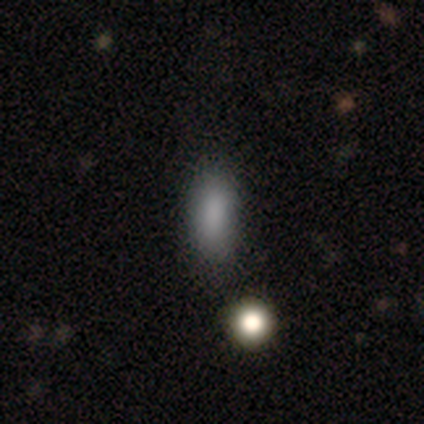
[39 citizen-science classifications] smooth_or_featured: smooth (p=0.85) [alt: star or artifact p=0.10]
how_rounded: in between (p=0.67) [alt: cigar-shaped p=0.24]
merging: none (p=0.74) [alt: minor disturbance p=0.20]